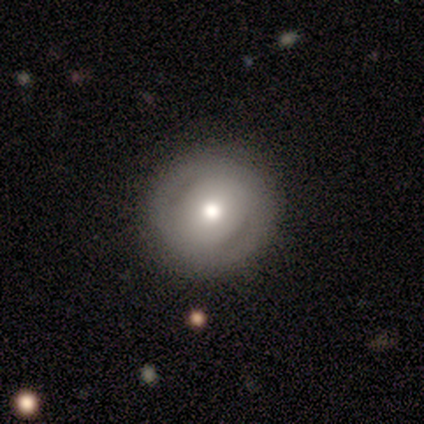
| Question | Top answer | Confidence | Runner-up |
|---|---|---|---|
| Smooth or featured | featured or disk | 50% | smooth (33%) |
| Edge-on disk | no | 67% | yes (33%) |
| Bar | no | 100% | — |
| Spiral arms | yes | 50% | tied: no (50%) |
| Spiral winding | tight | 100% | — |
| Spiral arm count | can't tell | 100% | — |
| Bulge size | dominant | 50% | tied: small (50%) |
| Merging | none | 100% | — |